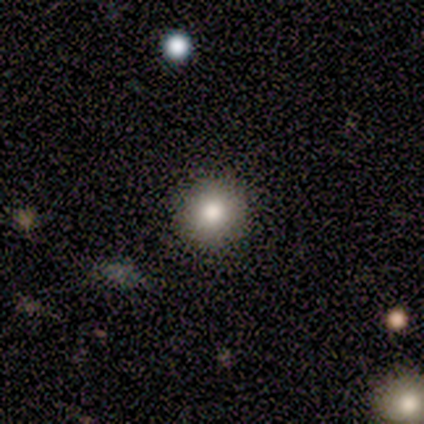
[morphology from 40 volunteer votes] A smooth galaxy with no disk features (85%) that is round (94%). Merging: none (97%).